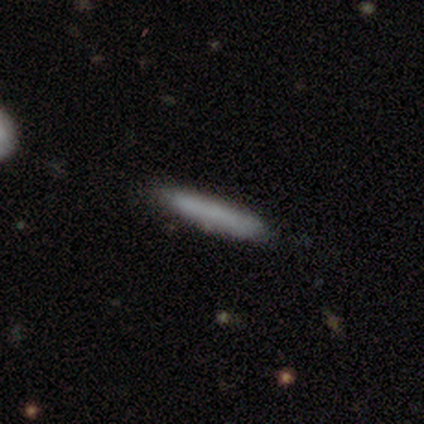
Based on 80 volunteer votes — This appears to be a smooth galaxy with no disk features (81%) that is cigar-shaped (95%). Merging: none (41%).